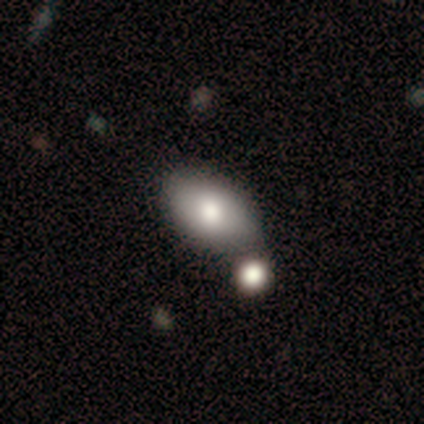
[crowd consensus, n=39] This appears to be a smooth galaxy with no disk features (77%) that is in between round and cigar-shaped (97%). Merging: none (51%).